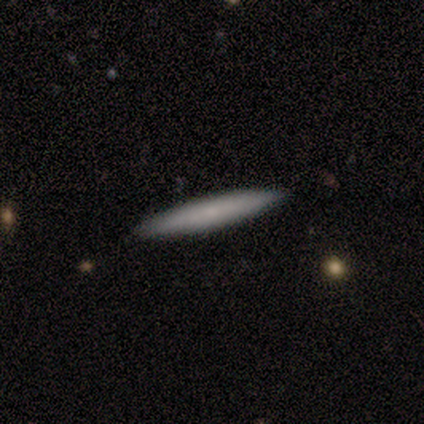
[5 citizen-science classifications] Smooth or featured? smooth (60%)
How rounded? cigar-shaped (100%)
Merging? none (100%)